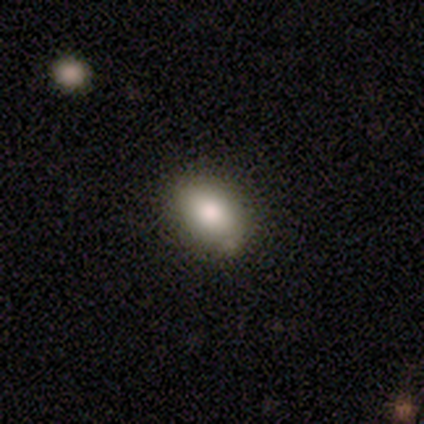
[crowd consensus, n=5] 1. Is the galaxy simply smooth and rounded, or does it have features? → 80% smooth, 20% star or artifact, 0% featured or disk.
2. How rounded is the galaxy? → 100% in between, 0% round, 0% cigar-shaped.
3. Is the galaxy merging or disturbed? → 75% none, 25% minor disturbance, 0% major disturbance, 0% merger.